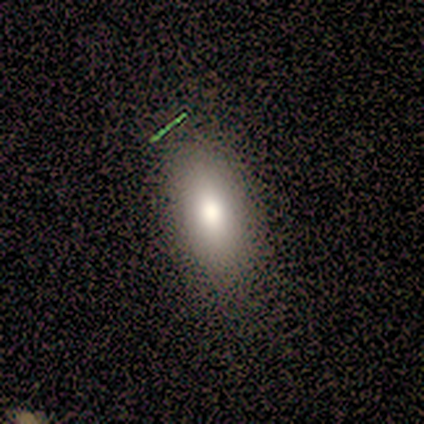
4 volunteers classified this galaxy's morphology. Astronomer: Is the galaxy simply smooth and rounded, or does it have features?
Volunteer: smooth — 50%.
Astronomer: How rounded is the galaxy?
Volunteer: in between — 100%.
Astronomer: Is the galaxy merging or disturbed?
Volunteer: none — 100%.